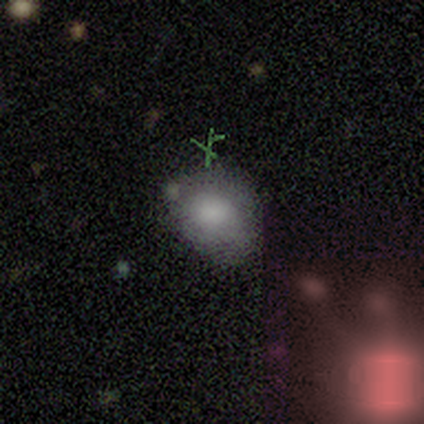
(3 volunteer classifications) Morphology: type=smooth (67%); roundness=round (50%, tied with in between); merging=minor disturbance (67%).